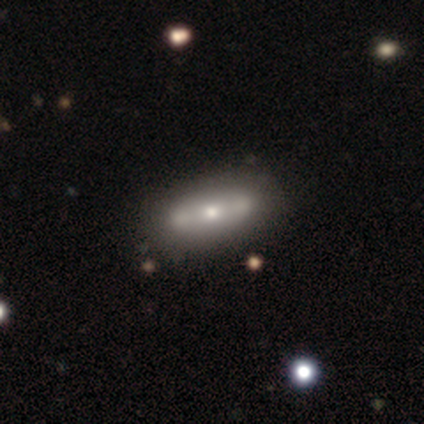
smooth_or_featured: featured or disk (p=0.53) [alt: smooth p=0.38]
disk_edge_on: no (p=0.57) [alt: yes p=0.43]
bar: no (p=0.58) [alt: strong p=0.33]
has_spiral_arms: no (p=0.83) [alt: yes p=0.17]
bulge_size: moderate (p=0.42) [alt: small p=0.33]
merging: none (p=0.47) [alt: merger p=0.19]